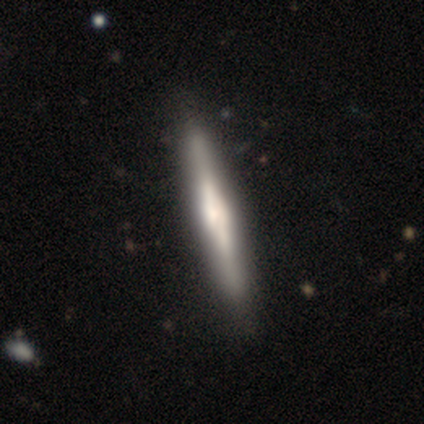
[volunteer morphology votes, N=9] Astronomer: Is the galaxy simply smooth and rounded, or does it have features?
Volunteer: featured or disk — 67%.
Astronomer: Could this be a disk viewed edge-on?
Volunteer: yes — 100%.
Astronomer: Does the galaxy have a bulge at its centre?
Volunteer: boxy — 67%.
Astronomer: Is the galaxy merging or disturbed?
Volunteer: none — 89%.